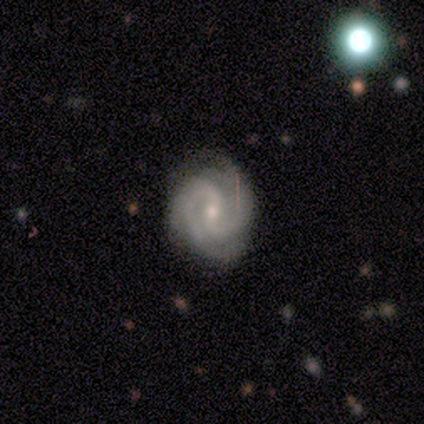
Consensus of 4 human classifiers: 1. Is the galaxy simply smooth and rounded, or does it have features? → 100% featured or disk, 0% smooth, 0% star or artifact.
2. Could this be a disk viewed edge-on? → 100% no, 0% yes.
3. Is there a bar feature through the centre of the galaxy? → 100% weak, 0% strong, 0% no.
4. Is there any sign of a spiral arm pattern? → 100% yes, 0% no.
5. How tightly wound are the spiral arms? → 75% medium, 25% tight, 0% loose.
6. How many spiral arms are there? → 100% 2, 0% 1, 0% 3, 0% 4, 0% more than 4, 0% can't tell.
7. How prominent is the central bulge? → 75% small, 25% moderate, 0% dominant, 0% large, 0% none.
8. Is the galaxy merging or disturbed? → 75% none, 25% minor disturbance, 0% major disturbance, 0% merger.